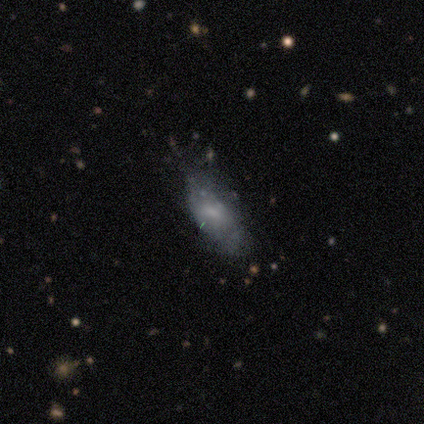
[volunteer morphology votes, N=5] smooth_or_featured: featured or disk (p=0.60) [alt: smooth p=0.40]
disk_edge_on: no (p=1.00)
bar: no (p=0.67) [alt: weak p=0.33]
has_spiral_arms: no (p=0.67) [alt: yes p=0.33]
bulge_size: moderate (p=0.67) [alt: small p=0.33]
merging: minor disturbance (p=0.60) [alt: none p=0.40]